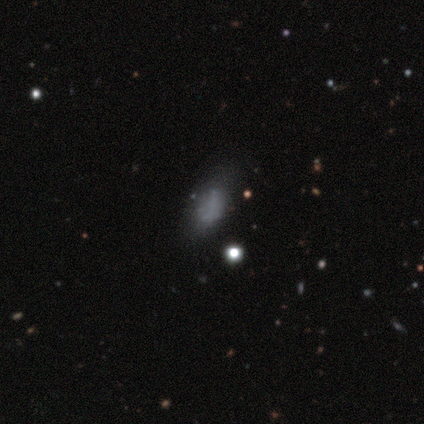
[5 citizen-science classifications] Smooth or featured?
  - smooth: 80% *
  - featured or disk: 20%
  - star or artifact: 0%
How rounded?
  - in between: 100% *
  - round: 0%
  - cigar-shaped: 0%
Merging?
  - none: 60% *
  - minor disturbance: 20%
  - major disturbance: 20%
  - merger: 0%